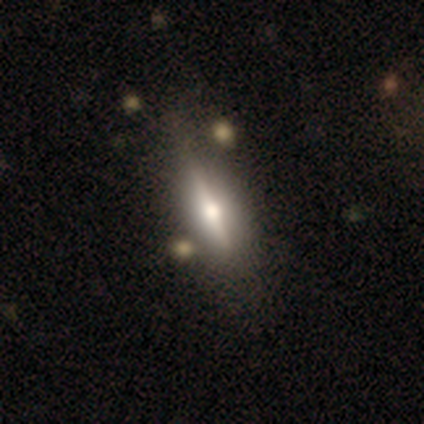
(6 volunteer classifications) A featured or disk galaxy (100%) viewed edge-on (100%) with a rounded central bulge (83%).

Vote fractions:
- Smooth or featured? featured or disk: 100% / smooth: 0% / star or artifact: 0%
- Edge-on disk? yes: 100% / no: 0%
- Edge-on bulge? rounded: 83% / boxy: 17% / none: 0%
- Merging? none: 100% / minor disturbance: 0% / major disturbance: 0% / merger: 0%